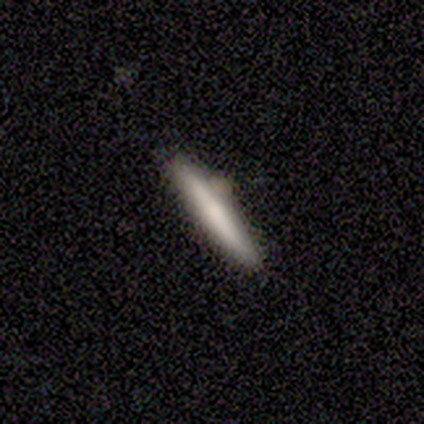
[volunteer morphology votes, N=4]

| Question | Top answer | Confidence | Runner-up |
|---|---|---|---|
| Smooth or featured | smooth | 75% | featured or disk (25%) |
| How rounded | cigar-shaped | 100% | — |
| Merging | none | 50% | minor disturbance (25%) |